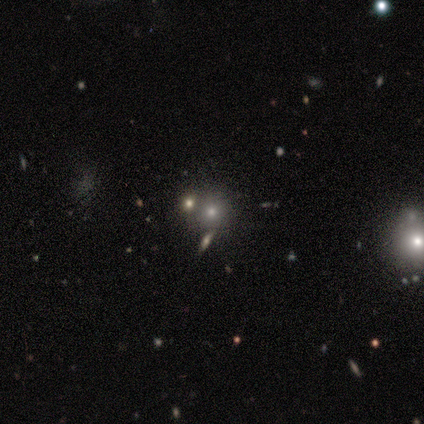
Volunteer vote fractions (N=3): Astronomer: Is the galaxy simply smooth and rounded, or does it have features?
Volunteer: star or artifact — 67%.